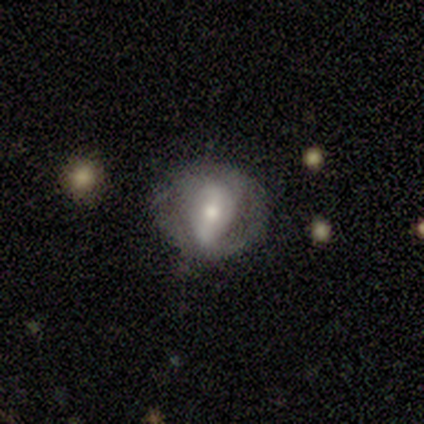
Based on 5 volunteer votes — featured or disk 60%, smooth 40%, star or artifact 0%. Down the decision tree: edge-on disk — no (100%); bar — strong (67%); spiral arms — yes (67%); spiral arm count — 2 (100%); spiral winding — medium (50%, tied with loose); bulge size — moderate (100%); merging — none (100%).